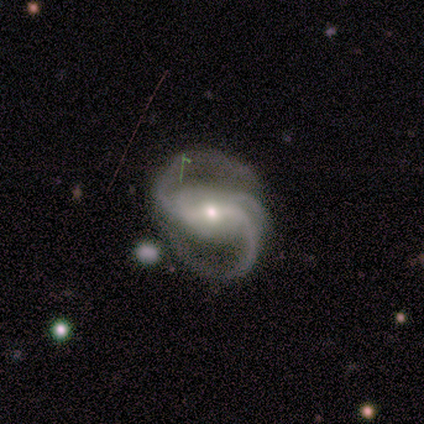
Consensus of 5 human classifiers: Q: Smooth or featured?
A: featured or disk (100%)
Q: Edge-on disk?
A: no (100%)
Q: Bar?
A: weak (60%); runner-up: strong (40%)
Q: Spiral arms?
A: yes (100%)
Q: Spiral winding?
A: medium (80%); runner-up: loose (20%)
Q: Spiral arm count?
A: 3 (60%); runner-up: 2 (40%)
Q: Bulge size?
A: moderate (80%); runner-up: small (20%)
Q: Merging?
A: minor disturbance (40%); tied with: major disturbance (40%)